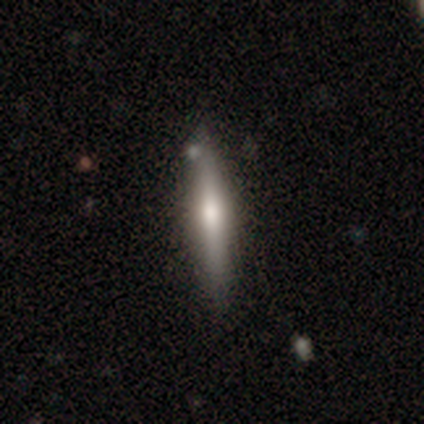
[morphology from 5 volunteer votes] A featured or disk galaxy (60%) viewed edge-on (100%) with a rounded central bulge (100%).

Vote fractions:
- Smooth or featured? featured or disk: 60% / smooth: 40% / star or artifact: 0%
- Edge-on disk? yes: 100% / no: 0%
- Edge-on bulge? rounded: 100% / boxy: 0% / none: 0%
- Merging? none: 80% / minor disturbance: 20% / major disturbance: 0% / merger: 0%